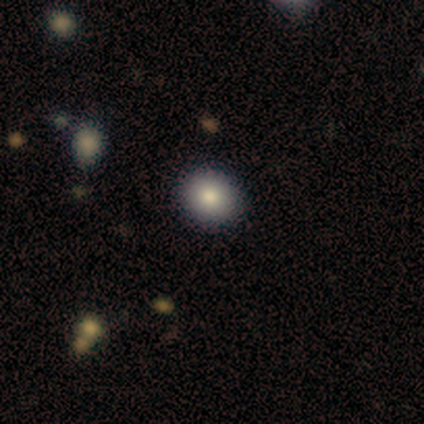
Smooth or featured? 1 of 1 (100%) said smooth. How rounded? 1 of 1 (100%) said round. Merging? 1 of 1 (100%) said none.